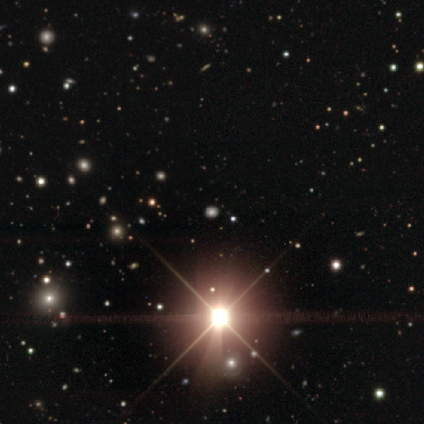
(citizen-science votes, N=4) Overall: star or artifact (100%).